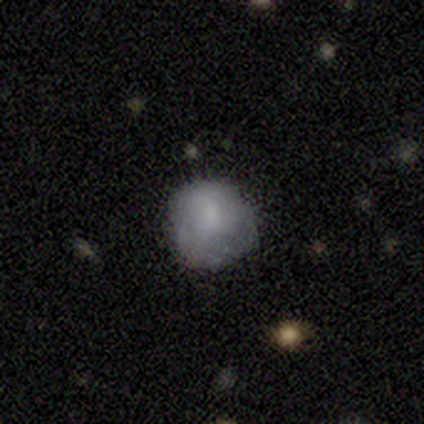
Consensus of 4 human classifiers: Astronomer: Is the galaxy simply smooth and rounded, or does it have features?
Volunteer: smooth — 50%, tied with featured or disk at 50%.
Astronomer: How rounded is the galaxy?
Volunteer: round — 100%.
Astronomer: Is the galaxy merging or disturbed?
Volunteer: none — 75%.